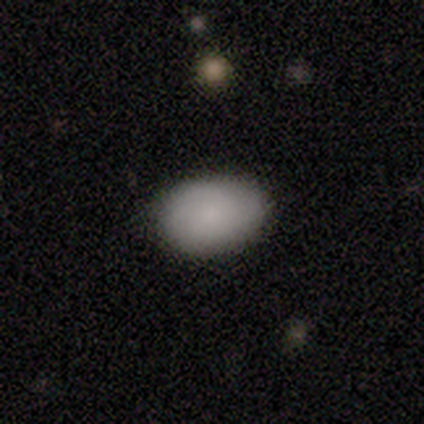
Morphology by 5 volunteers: Smooth or featured?
  - smooth: 60% *
  - featured or disk: 40%
  - star or artifact: 0%
How rounded?
  - in between: 100% *
  - round: 0%
  - cigar-shaped: 0%
Merging?
  - none: 60% *
  - minor disturbance: 40%
  - major disturbance: 0%
  - merger: 0%